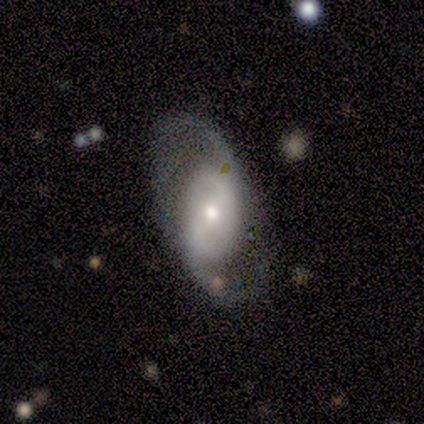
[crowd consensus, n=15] A featured or disk galaxy (87%) with a weak bar (58%), 2 (100%) medium (50%) spiral arms (100%) and a small central bulge (58%).

Vote fractions:
- Smooth or featured? featured or disk: 87% / smooth: 7% / star or artifact: 7%
- Edge-on disk? no: 92% / yes: 8%
- Bar? weak: 58% / no: 25% / strong: 17%
- Spiral arms? yes: 100% / no: 0%
- Spiral winding? medium: 50% / loose: 42% / tight: 8%
- Spiral arm count? 2: 100% / 1: 0% / 3: 0% / 4: 0% / more than 4: 0% / can't tell: 0%
- Bulge size? small: 58% / moderate: 33% / large: 8% / dominant: 0% / none: 0%
- Merging? none: 64% / minor disturbance: 21% / major disturbance: 7% / merger: 7%